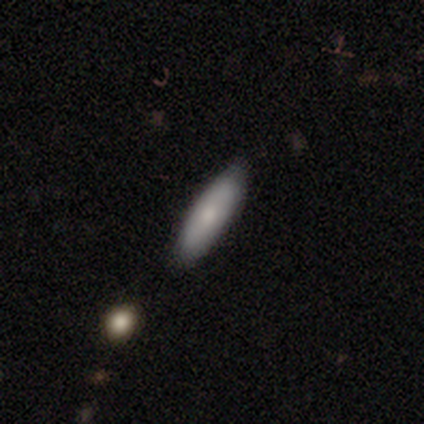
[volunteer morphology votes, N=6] This is clearly a smooth galaxy (83%). How rounded: likely cigar-shaped (60%). Merging: clearly none (100%).